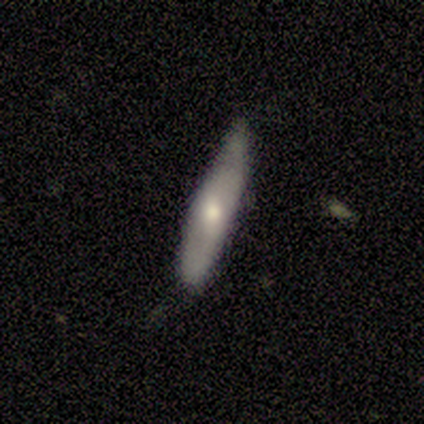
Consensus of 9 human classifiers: This is likely a featured or disk galaxy (67%). It is likely viewed edge-on (67%). Edge-on bulge: clearly rounded (100%). Merging: likely none (67%).